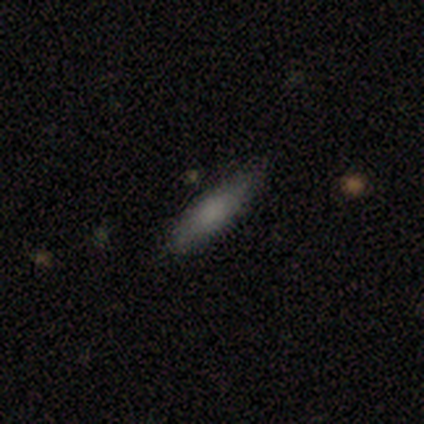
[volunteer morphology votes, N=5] Volunteers were most divided on "how rounded": in between: 60%, cigar-shaped: 40%, round: 0%. More confident: smooth or featured — smooth (100%); merging — none (100%).